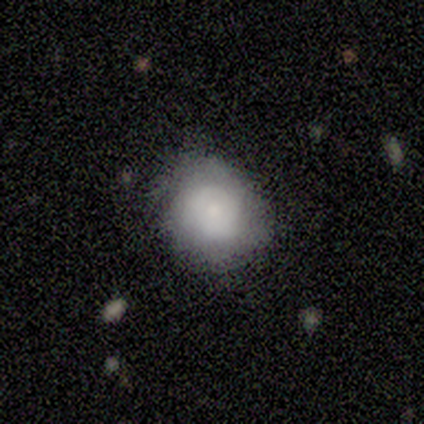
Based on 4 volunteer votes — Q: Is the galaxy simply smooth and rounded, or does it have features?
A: smooth — 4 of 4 (100%).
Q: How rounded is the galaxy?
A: round — 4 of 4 (100%).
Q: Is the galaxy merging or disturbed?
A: none — 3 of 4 (75%).